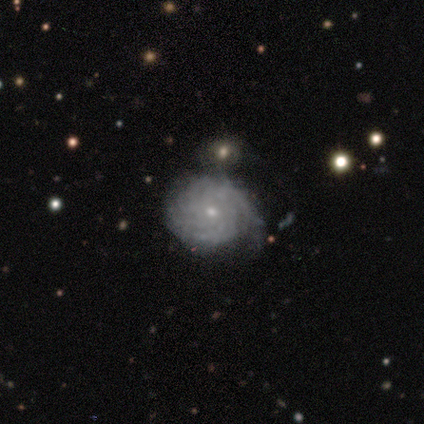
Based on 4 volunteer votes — A featured or disk galaxy (75%) with no bar (100%), more than 4 (67%) tight (100%) spiral arms (100%) and a small central bulge (100%). Merging: none (50%, tied with minor disturbance).